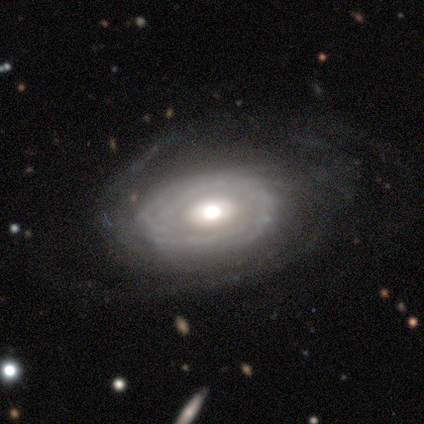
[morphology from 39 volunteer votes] Q: Smooth or featured?
A: featured or disk (82%); runner-up: smooth (15%)
Q: Edge-on disk?
A: no (97%); runner-up: yes (3%)
Q: Bar?
A: no (87%); runner-up: strong (6%)
Q: Spiral arms?
A: yes (74%); runner-up: no (26%)
Q: Spiral winding?
A: tight (74%); runner-up: medium (22%)
Q: Spiral arm count?
A: can't tell (39%); runner-up: 2 (26%)
Q: Bulge size?
A: moderate (71%); runner-up: large (16%)
Q: Merging?
A: none (76%); runner-up: major disturbance (16%)